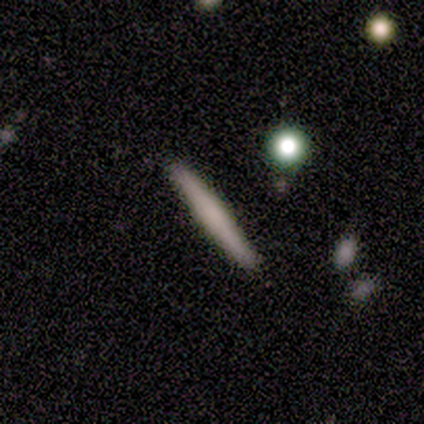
A smooth galaxy with no disk features (40%, tied with featured or disk) that is cigar-shaped (100%).

Vote fractions:
- Smooth or featured? smooth: 40% (tied) / featured or disk: 40% (tied) / star or artifact: 20%
- How rounded? cigar-shaped: 100% / round: 0% / in between: 0%
- Merging? none: 100% / minor disturbance: 0% / major disturbance: 0% / merger: 0%